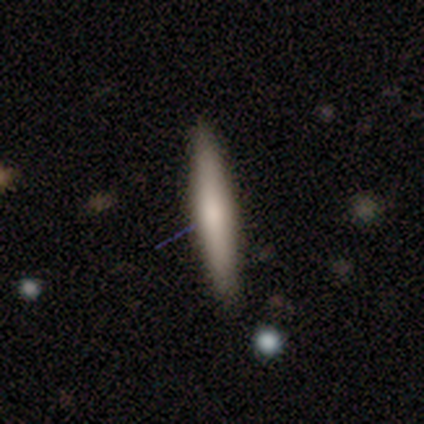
smooth 50%, featured or disk 40%, star or artifact 10%. Down the decision tree: how rounded — cigar-shaped (100%); merging — none (89%).